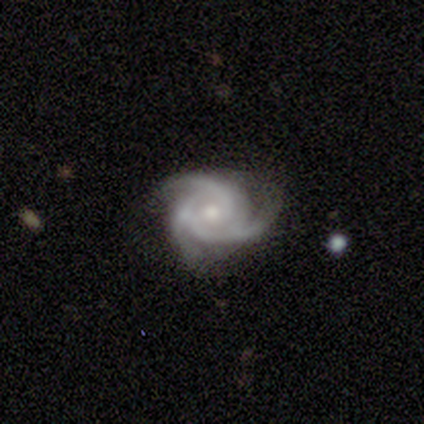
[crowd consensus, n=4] A featured or disk galaxy (100%) with a weak bar (50%, tied with no), 3 (100%) tight (75%) spiral arms (100%) and a moderate central bulge (75%). Merging: none (75%).